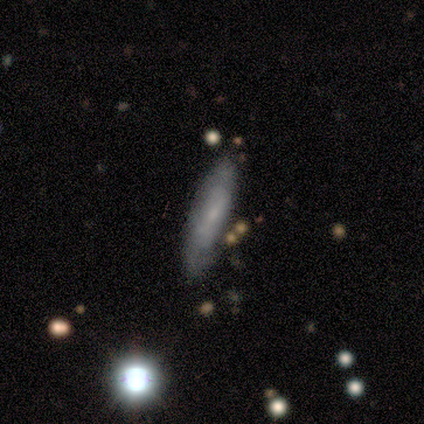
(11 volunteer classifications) A featured or disk galaxy (55%) viewed edge-on (50%, tied with no) with a boxy central bulge (33%, tied with none and rounded). Merging: none (100%).